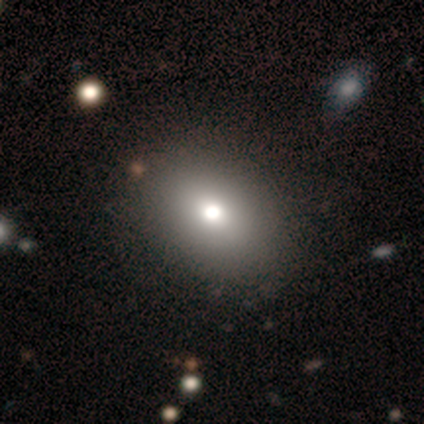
Smooth or featured: smooth — 50% (featured or disk — 25%)
How rounded: round — 50% (tied with in between — 50%)
Merging: none — 50% (minor disturbance — 33%)